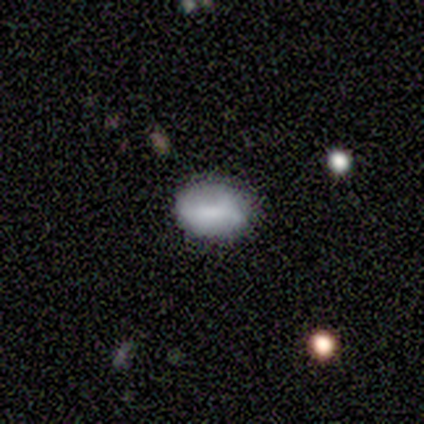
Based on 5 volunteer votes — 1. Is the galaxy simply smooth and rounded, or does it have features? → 80% smooth, 20% featured or disk, 0% star or artifact.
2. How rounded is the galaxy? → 75% in between, 25% round, 0% cigar-shaped.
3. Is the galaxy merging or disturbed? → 100% none, 0% minor disturbance, 0% major disturbance, 0% merger.